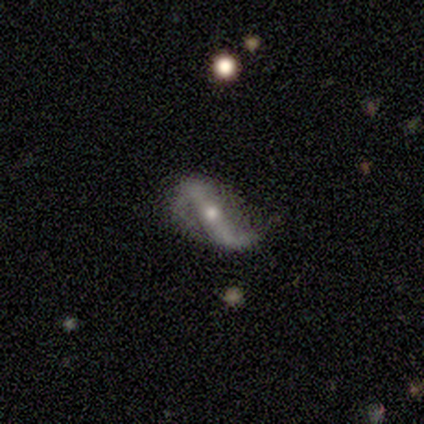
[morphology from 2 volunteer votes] This is clearly a featured or disk galaxy (100%). It is clearly not viewed edge-on (100%). Bar: clearly strong (100%). Spiral arm pattern: clearly yes (100%). Spiral arm count: clearly 2 (100%). Spiral winding: possibly medium (50%, tied with loose). Central bulge: clearly moderate (100%). Merging: possibly none (50%, tied with major disturbance).